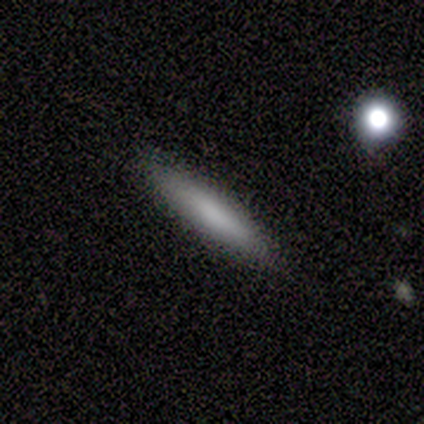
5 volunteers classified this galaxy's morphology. Smooth or featured? 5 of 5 (100%) said smooth. How rounded? 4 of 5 (80%) said cigar-shaped. Merging? 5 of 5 (100%) said none.